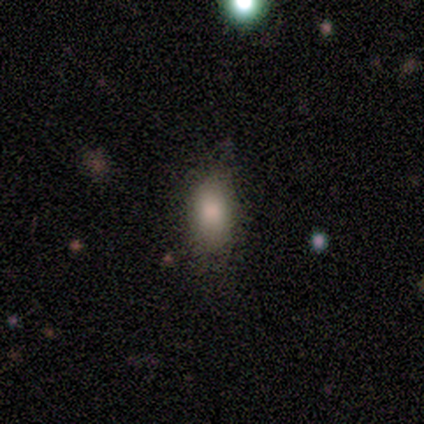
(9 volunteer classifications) A smooth galaxy with no disk features (89%) that is in between round and cigar-shaped (88%).

Vote fractions:
- Smooth or featured? smooth: 89% / star or artifact: 11% / featured or disk: 0%
- How rounded? in between: 88% / cigar-shaped: 12% / round: 0%
- Merging? none: 75% / minor disturbance: 25% / major disturbance: 0% / merger: 0%